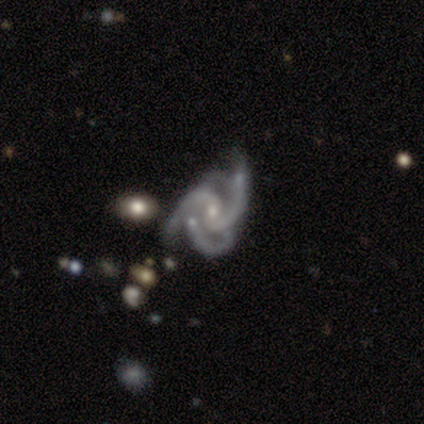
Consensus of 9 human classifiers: This appears to be a featured or disk galaxy (100%) with a strong bar (44%), 3 (56%) medium (78%) spiral arms (100%) and a moderate central bulge (56%). Merging: none (44%).